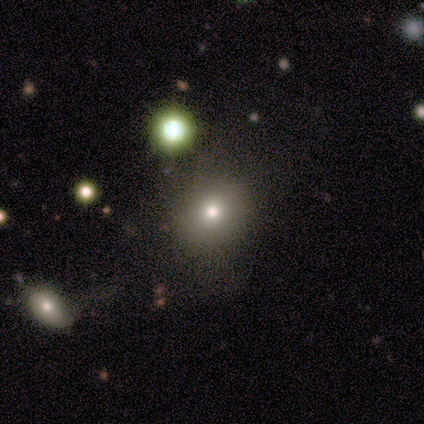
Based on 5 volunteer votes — This is likely a smooth galaxy (60%). How rounded: likely round (67%). Merging: marginally none (40%, tied with major disturbance).